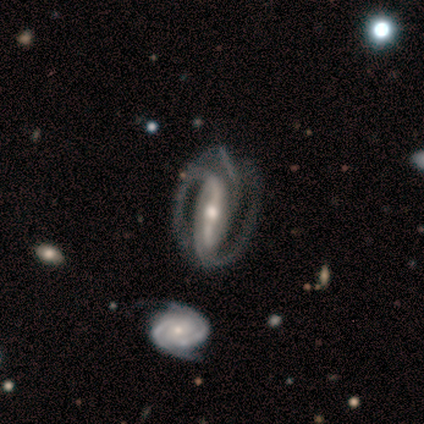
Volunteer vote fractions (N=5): Smooth or featured: featured or disk — 100%
Edge-on disk: no — 100%
Bar: strong — 60% (weak — 40%)
Spiral arms: yes — 100%
Spiral winding: medium — 40% (tied with loose — 40%)
Spiral arm count: 2 — 80% (can't tell — 20%)
Bulge size: moderate — 60% (small — 40%)
Merging: none — 100%